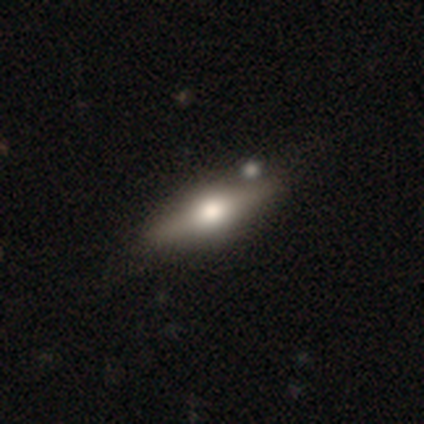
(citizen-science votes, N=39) Overall: featured or disk (64%; smooth 28%). Edge-on disk: yes (92%). Edge-on bulge: rounded (96%). Merging: none (69%).